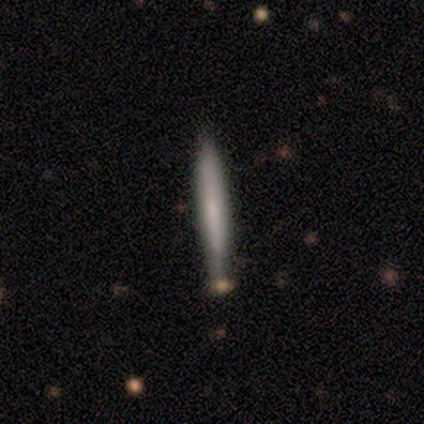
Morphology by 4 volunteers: This is likely a smooth galaxy (75%). How rounded: clearly cigar-shaped (100%). Merging: clearly none (100%).